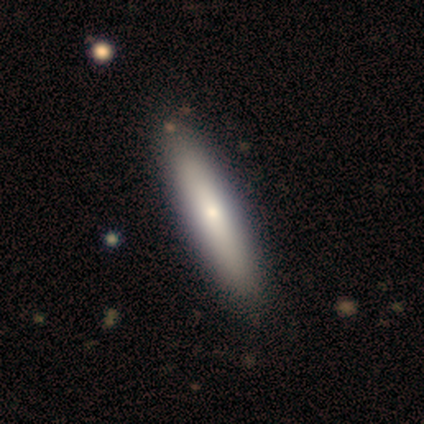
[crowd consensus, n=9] Q: Smooth or featured?
A: smooth (67%); runner-up: featured or disk (33%)
Q: How rounded?
A: cigar-shaped (83%); runner-up: in between (17%)
Q: Merging?
A: none (100%)